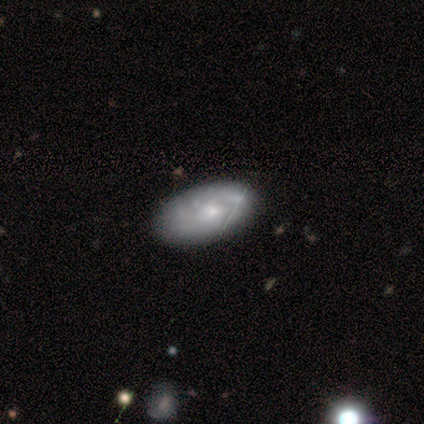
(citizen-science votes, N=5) This is clearly a featured or disk galaxy (80%). It is clearly not viewed edge-on (100%). Bar: likely no (75%). Spiral arm pattern: possibly yes (50%, tied with no). Spiral arm count: possibly 2 (50%, tied with can't tell). Spiral winding: clearly tight (100%). Central bulge: possibly moderate (50%, tied with small). Merging: clearly none (100%).